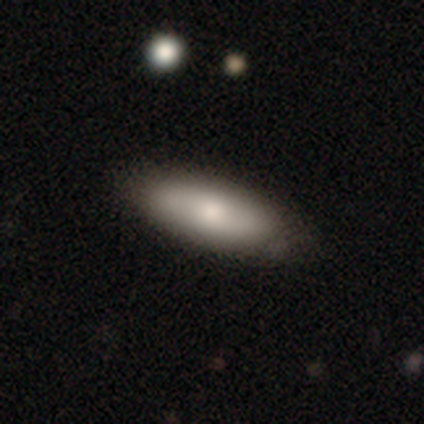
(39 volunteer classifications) This is clearly a smooth galaxy (85%). How rounded: likely in between (67%). Merging: likely none (78%).